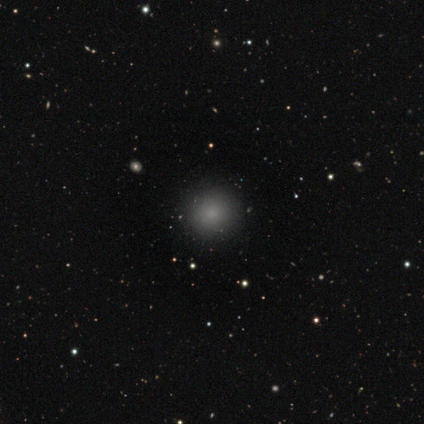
Q: Smooth or featured?
A: smooth (73%); runner-up: star or artifact (18%)
Q: How rounded?
A: round (88%); runner-up: in between (12%)
Q: Merging?
A: none (89%); runner-up: minor disturbance (11%)